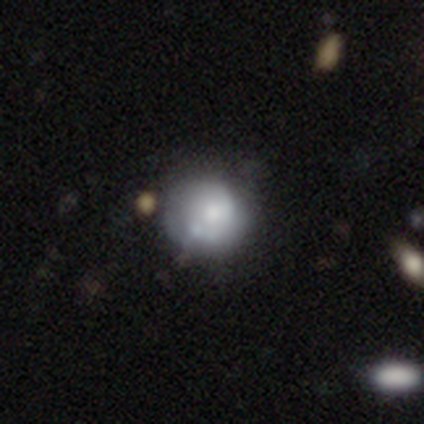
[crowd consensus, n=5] Smooth or featured?
  - featured or disk: 60% *
  - smooth: 40%
  - star or artifact: 0%
Edge-on disk?
  - no: 100% *
  - yes: 0%
Bar?
  - no: 100% *
  - strong: 0%
  - weak: 0%
Spiral arms?
  - no: 67% *
  - yes: 33%
Bulge size?
  - large: 67% *
  - moderate: 33%
  - dominant: 0%
  - small: 0%
  - none: 0%
Merging?
  - none: 40% * (tied)
  - merger: 40% * (tied)
  - major disturbance: 20%
  - minor disturbance: 0%